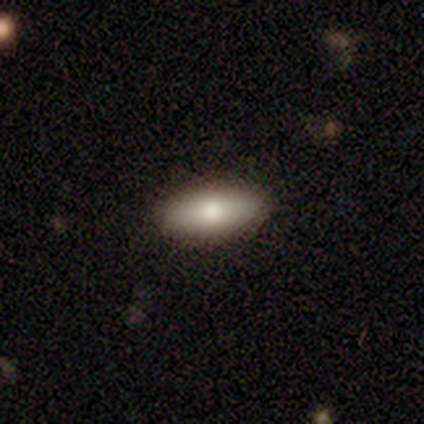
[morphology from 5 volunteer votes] smooth-or-featured: smooth: 100% | featured or disk: 0% | star or artifact: 0%
  how-rounded: in between: 80% | cigar-shaped: 20% | round: 0%
  merging: none: 100% | minor disturbance: 0% | major disturbance: 0% | merger: 0%